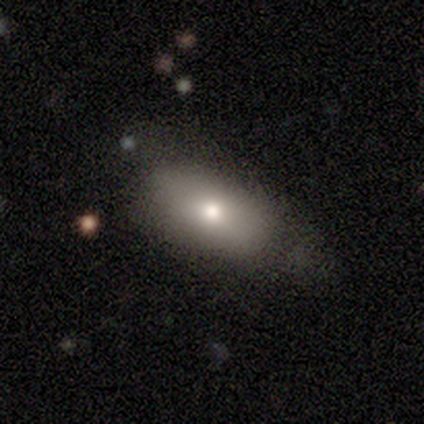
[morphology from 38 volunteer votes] A smooth galaxy with no disk features (76%) that is in between round and cigar-shaped (90%).

Vote fractions:
- Smooth or featured? smooth: 76% / featured or disk: 18% / star or artifact: 5%
- How rounded? in between: 90% / cigar-shaped: 7% / round: 3%
- Merging? none: 56% / minor disturbance: 28% / major disturbance: 17% / merger: 0%